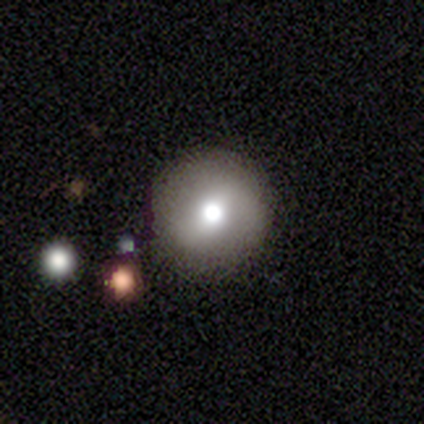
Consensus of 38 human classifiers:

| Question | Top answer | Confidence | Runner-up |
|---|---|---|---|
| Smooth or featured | smooth | 66% | featured or disk (24%) |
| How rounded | round | 96% | in between (4%) |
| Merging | none | 50% | merger (9%) |